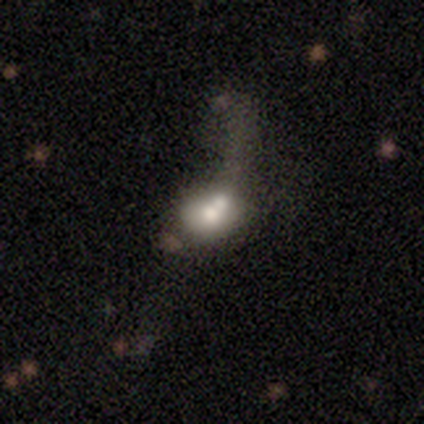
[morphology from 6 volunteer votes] Smooth or featured?
  - smooth: 67% *
  - featured or disk: 33%
  - star or artifact: 0%
How rounded?
  - in between: 75% *
  - round: 25%
  - cigar-shaped: 0%
Merging?
  - major disturbance: 50% *
  - none: 17%
  - minor disturbance: 17%
  - merger: 17%